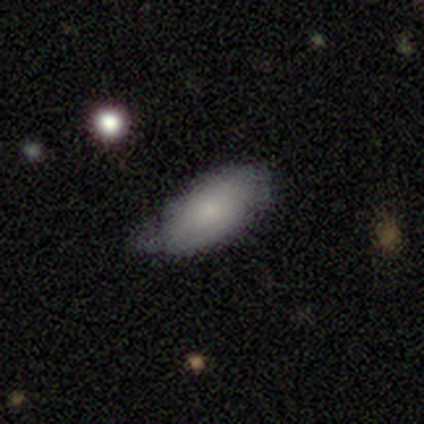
smooth-or-featured: smooth: 84% | featured or disk: 14% | star or artifact: 3%
  how-rounded: in between: 87% | round: 10% | cigar-shaped: 3%
  merging: minor disturbance: 53% | none: 36% | major disturbance: 6% | merger: 6%